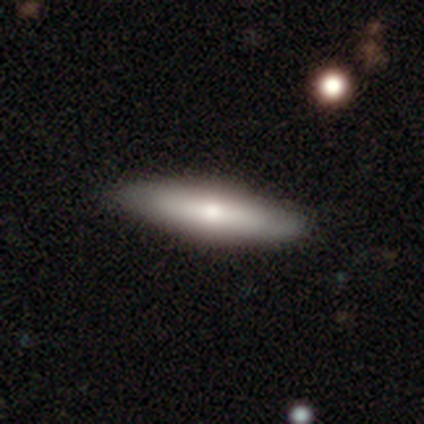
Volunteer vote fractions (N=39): A smooth galaxy with no disk features (64%) that is cigar-shaped (56%).

Vote fractions:
- Smooth or featured? smooth: 64% / featured or disk: 28% / star or artifact: 8%
- How rounded? cigar-shaped: 56% / in between: 44% / round: 0%
- Merging? none: 67% / minor disturbance: 6% / major disturbance: 0% / merger: 0%